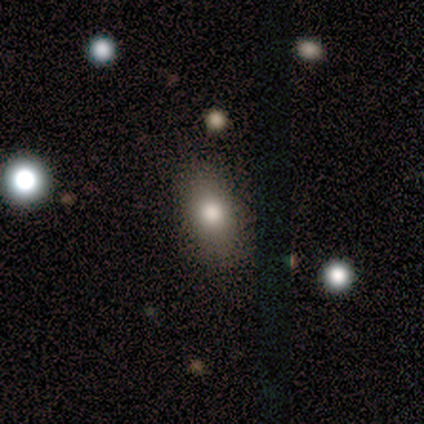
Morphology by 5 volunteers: Smooth or featured?
  - smooth: 80% *
  - featured or disk: 20%
  - star or artifact: 0%
How rounded?
  - in between: 100% *
  - round: 0%
  - cigar-shaped: 0%
Merging?
  - none: 60% *
  - minor disturbance: 20%
  - major disturbance: 20%
  - merger: 0%